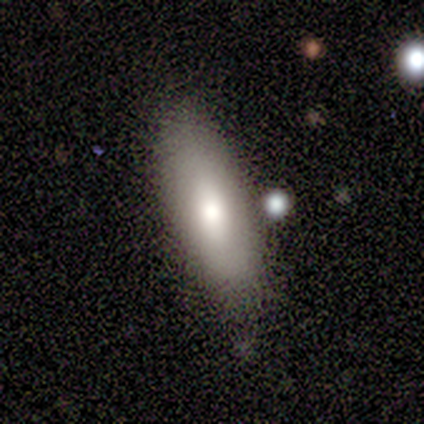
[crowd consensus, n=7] Volunteers were most divided on "merging": none: 57%, minor disturbance: 43%, major disturbance: 0%, merger: 0%. More confident: how rounded — in between (80%); smooth or featured — smooth (71%).